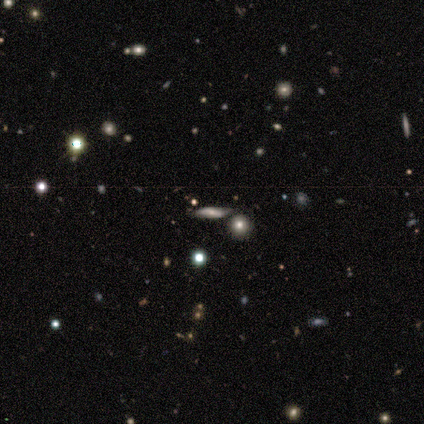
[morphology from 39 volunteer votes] A featured or disk galaxy (41%) with no bar (78%), no spiral arms (56%) and a moderate central bulge (33%).

Vote fractions:
- Smooth or featured? featured or disk: 41% / star or artifact: 31% / smooth: 28%
- Edge-on disk? no: 56% / yes: 44%
- Bar? no: 78% / weak: 22% / strong: 0%
- Spiral arms? no: 56% / yes: 44%
- Bulge size? moderate: 33% / large: 22% / small: 22% / none: 22% / dominant: 0%
- Merging? none: 81% / minor disturbance: 15% / major disturbance: 4% / merger: 0%